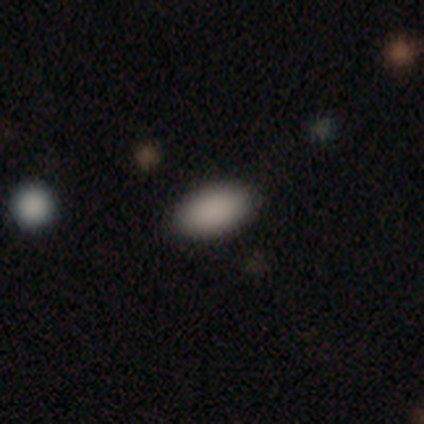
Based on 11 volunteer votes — Smooth or featured? 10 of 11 (91%) said smooth. How rounded? 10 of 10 (100%) said in between. Merging? 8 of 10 (80%) said none.